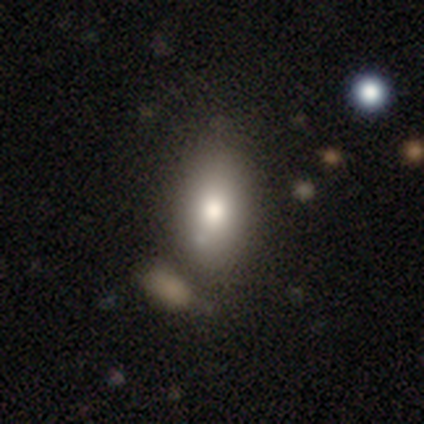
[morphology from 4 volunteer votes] Volunteers were most divided on "smooth or featured": star or artifact: 75%, smooth: 25%, featured or disk: 0%.